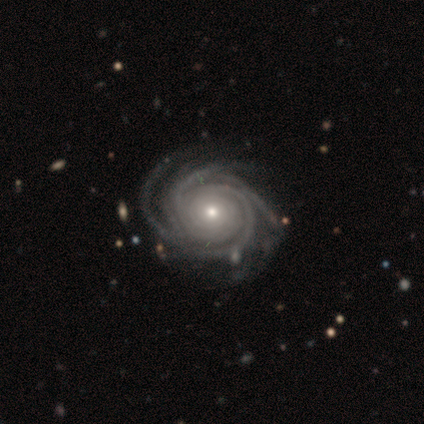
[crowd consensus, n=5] smooth-or-featured: featured or disk: 100% | smooth: 0% | star or artifact: 0%
  disk-edge-on: no: 100% | yes: 0%
    bar: no: 100% | strong: 0% | weak: 0%
    has-spiral-arms: yes: 100% | no: 0%
      spiral-winding: tight: 80% | medium: 20% | loose: 0%
      spiral-arm-count: 3: 80% | 4: 20% | 1: 0% | 2: 0% | more than 4: 0% | can't tell: 0%
    bulge-size: small: 60% | moderate: 40% | dominant: 0% | large: 0% | none: 0%
  merging: none: 100% | minor disturbance: 0% | major disturbance: 0% | merger: 0%